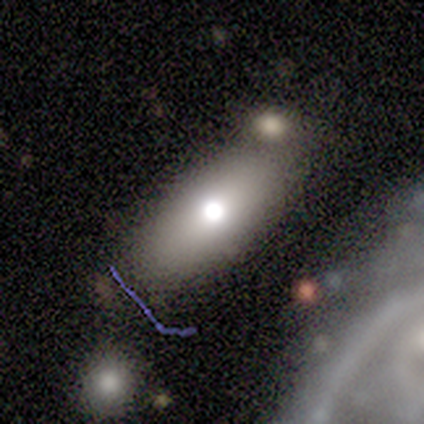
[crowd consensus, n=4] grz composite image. It shows a smooth galaxy with no disk features (75%) that is in between round and cigar-shaped (100%). Merging: none (50%).